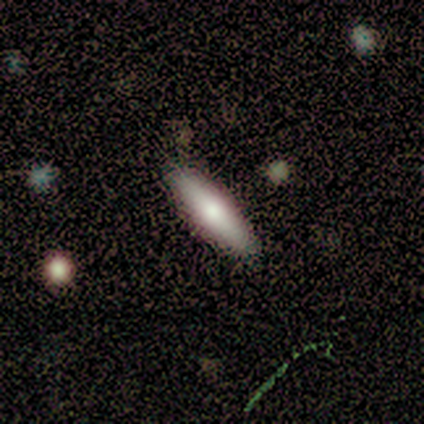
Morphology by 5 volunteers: A smooth galaxy with no disk features (80%) that is in between round and cigar-shaped (50%, tied with cigar-shaped).

Vote fractions:
- Smooth or featured? smooth: 80% / featured or disk: 20% / star or artifact: 0%
- How rounded? in between: 50% (tied) / cigar-shaped: 50% (tied) / round: 0%
- Merging? none: 100% / minor disturbance: 0% / major disturbance: 0% / merger: 0%